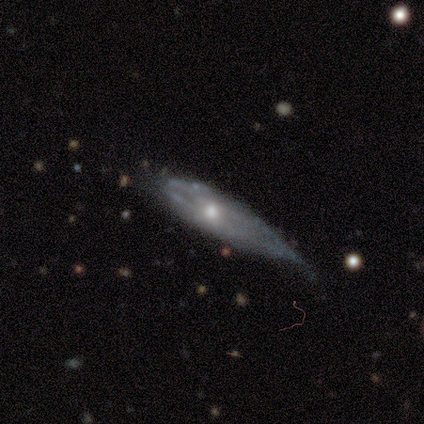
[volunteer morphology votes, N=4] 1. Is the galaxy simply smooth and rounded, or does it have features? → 75% featured or disk, 25% star or artifact, 0% smooth.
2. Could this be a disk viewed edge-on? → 67% no, 33% yes.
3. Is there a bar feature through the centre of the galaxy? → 100% no, 0% strong, 0% weak.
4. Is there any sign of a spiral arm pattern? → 100% no, 0% yes.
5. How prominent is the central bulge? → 100% moderate, 0% dominant, 0% large, 0% small, 0% none.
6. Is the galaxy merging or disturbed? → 67% minor disturbance, 33% none, 0% major disturbance, 0% merger.